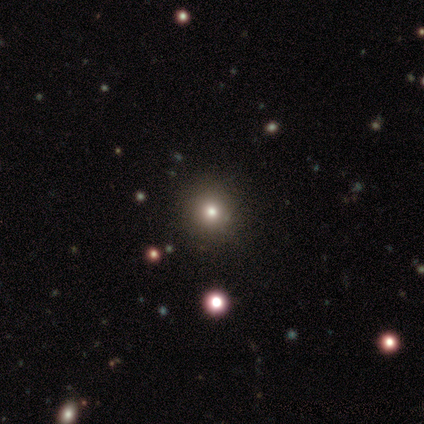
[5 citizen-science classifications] A smooth galaxy with no disk features (80%) that is round (50%, tied with in between). Merging: none (100%).